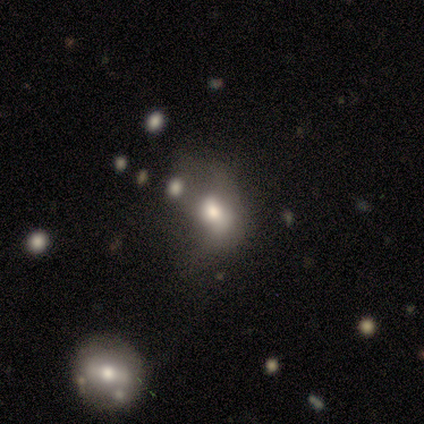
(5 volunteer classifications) Q: Smooth or featured?
A: smooth (60%); runner-up: featured or disk (40%)
Q: How rounded?
A: in between (67%); runner-up: round (33%)
Q: Merging?
A: major disturbance (60%); runner-up: merger (40%)